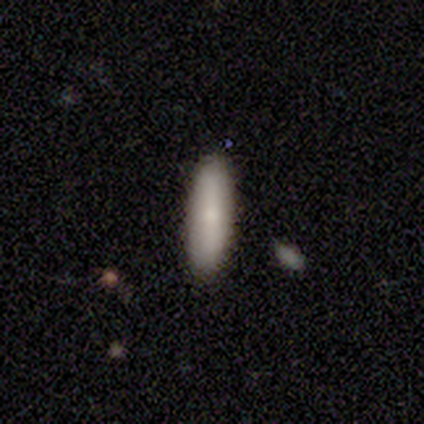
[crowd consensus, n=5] smooth 80%, featured or disk 20%, star or artifact 0%. Down the decision tree: how rounded — in between (75%); merging — none (100%).